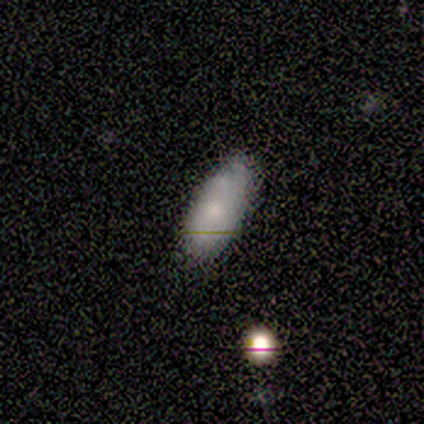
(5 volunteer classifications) Overall: smooth (80%). How rounded: in between (100%). Merging: none (100%).